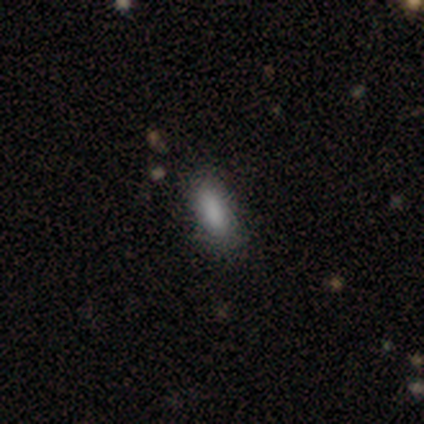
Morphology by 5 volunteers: smooth-or-featured: smooth: 100% | featured or disk: 0% | star or artifact: 0%
  how-rounded: in between: 100% | round: 0% | cigar-shaped: 0%
  merging: none: 100% | minor disturbance: 0% | major disturbance: 0% | merger: 0%